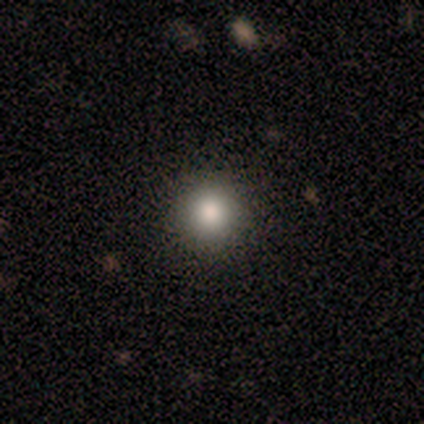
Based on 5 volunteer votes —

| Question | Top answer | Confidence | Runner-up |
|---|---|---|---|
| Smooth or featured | smooth | 100% | — |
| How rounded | round | 100% | — |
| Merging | none | 80% | major disturbance (20%) |